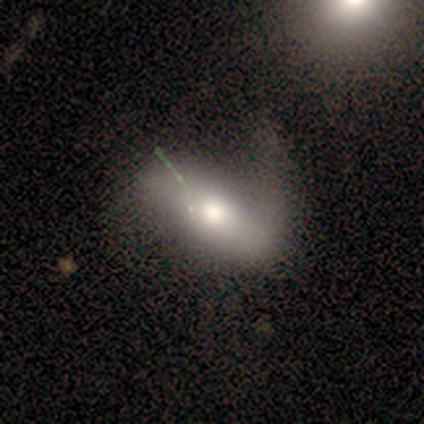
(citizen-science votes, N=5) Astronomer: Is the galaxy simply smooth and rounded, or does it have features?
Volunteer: smooth — 60% (runner-up: featured or disk, 40%).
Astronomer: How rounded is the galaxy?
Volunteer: in between — 67%.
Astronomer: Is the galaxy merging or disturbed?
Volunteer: major disturbance — 60%.